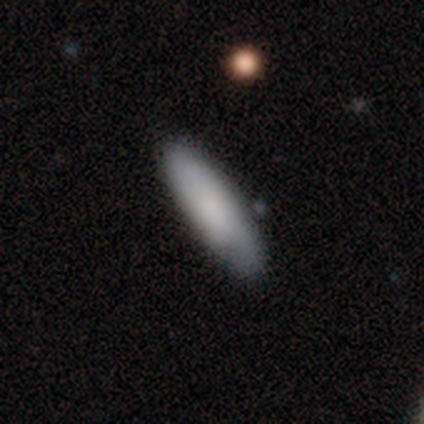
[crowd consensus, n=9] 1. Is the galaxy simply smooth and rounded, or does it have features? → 78% smooth, 22% featured or disk, 0% star or artifact.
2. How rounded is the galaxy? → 71% cigar-shaped, 29% in between, 0% round.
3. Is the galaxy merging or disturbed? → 67% none, 33% minor disturbance, 0% major disturbance, 0% merger.